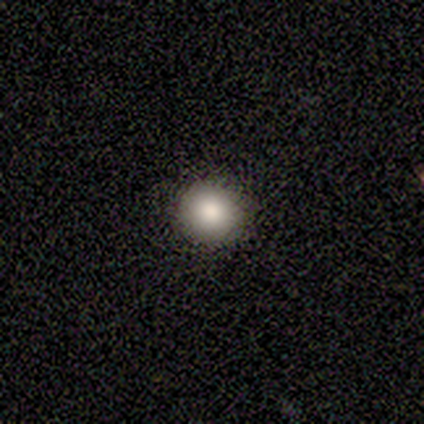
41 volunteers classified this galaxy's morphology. smooth 85%, star or artifact 10%, featured or disk 5%. Down the decision tree: how rounded — round (100%); merging — none (89%).